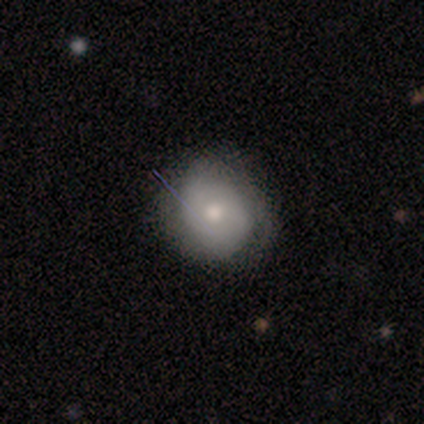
This appears to be a smooth galaxy with no disk features (60%) that is round (83%). Merging: none (49%).